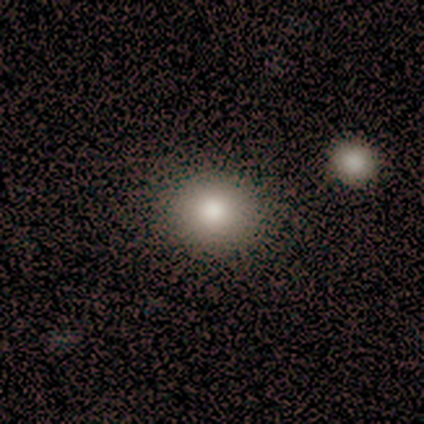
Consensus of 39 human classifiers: This appears to be a smooth galaxy with no disk features (85%) that is round (76%). Merging: none (66%).